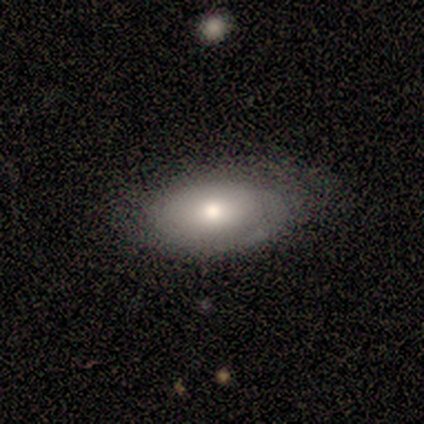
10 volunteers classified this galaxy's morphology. A smooth galaxy with no disk features (60%) that is in between round and cigar-shaped (100%). Merging: none (44%).